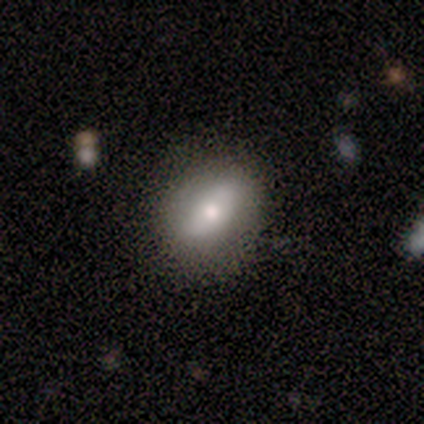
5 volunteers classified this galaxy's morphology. This is likely a featured or disk galaxy (60%). It is likely not viewed edge-on (67%). Bar: possibly strong (50%, tied with no). Spiral arm pattern: clearly no (100%). Central bulge: possibly moderate (50%, tied with small). Merging: clearly none (100%).